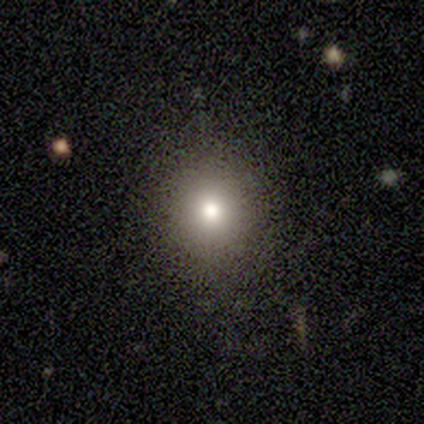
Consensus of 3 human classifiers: Morphology: type=smooth (67%); roundness=round (50%, tied with in between); merging=none (100%).